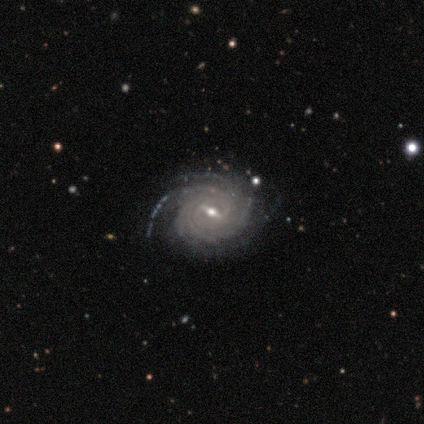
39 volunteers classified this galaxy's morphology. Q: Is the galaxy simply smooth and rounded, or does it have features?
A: featured or disk — 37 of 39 (95%).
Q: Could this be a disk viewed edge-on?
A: no — 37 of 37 (100%).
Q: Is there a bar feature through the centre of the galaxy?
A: strong — 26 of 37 (70%).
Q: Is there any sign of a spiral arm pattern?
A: yes — 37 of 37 (100%).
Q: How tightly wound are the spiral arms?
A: tight — 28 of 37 (76%).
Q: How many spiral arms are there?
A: more than 4 — 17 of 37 (46%).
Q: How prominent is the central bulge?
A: moderate — 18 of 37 (49%).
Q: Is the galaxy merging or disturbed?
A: none — 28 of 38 (74%).